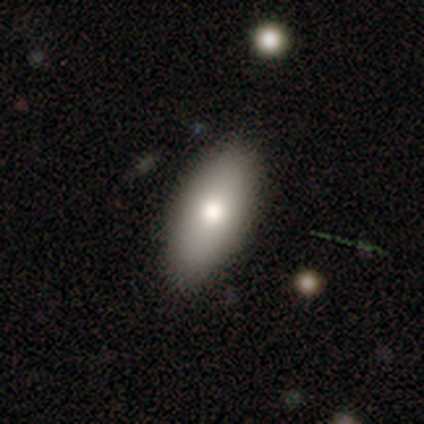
Overall: smooth (82%). How rounded: in between (88%). Merging: none (89%).